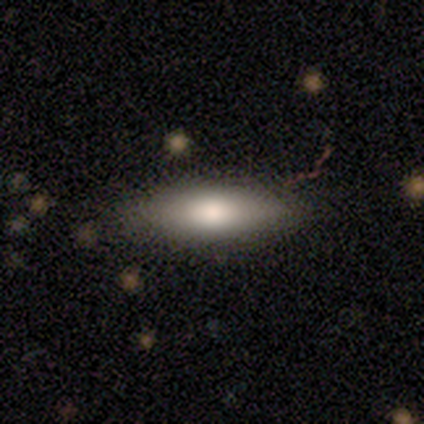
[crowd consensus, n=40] Overall: smooth (75%). How rounded: in between (70%; cigar-shaped 30%). Merging: none (84%).